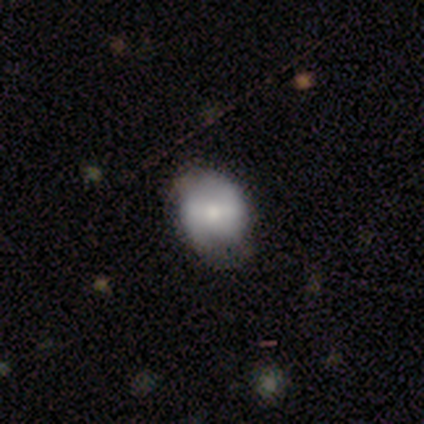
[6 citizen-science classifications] A smooth galaxy with no disk features (50%, tied with featured or disk) that is in between round and cigar-shaped (67%). Merging: none (50%).